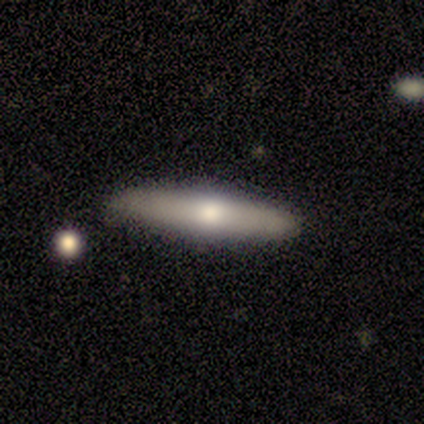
smooth_or_featured: smooth (p=0.50) [tied with: featured or disk p=0.50]
how_rounded: cigar-shaped (p=1.00)
merging: none (p=0.75) [alt: minor disturbance p=0.25]